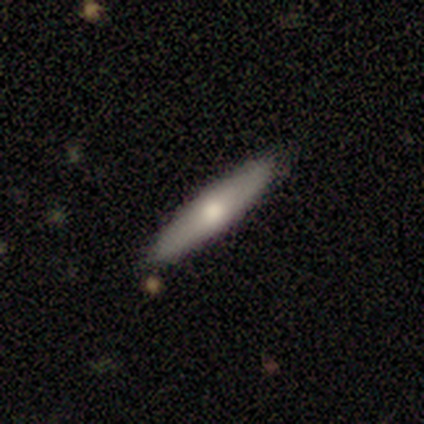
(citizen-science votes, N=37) A smooth galaxy with no disk features (68%) that is cigar-shaped (88%). Merging: none (83%).